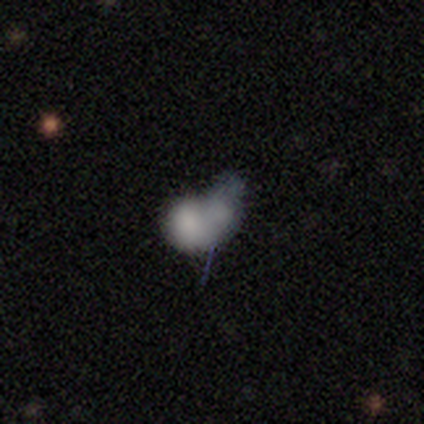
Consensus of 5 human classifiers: Overall: smooth (60%; featured or disk 40%). How rounded: in between (67%; round 33%). Merging: merger (80%).